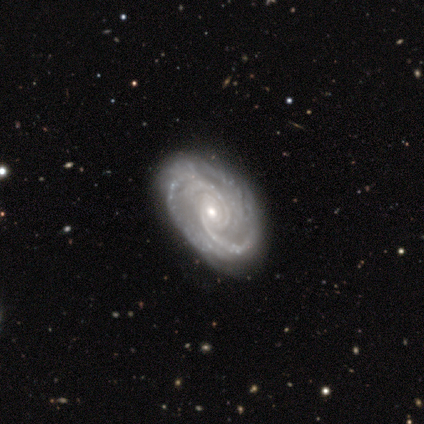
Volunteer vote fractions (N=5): Smooth or featured? featured or disk (100%)
Edge-on disk? no (100%)
Bar? no (100%)
Spiral arms? yes (100%)
Spiral winding? tight (40%, tied with medium)
Spiral arm count? 2 (40%, tied with 3)
Bulge size? small (60%)
Merging? none (80%)